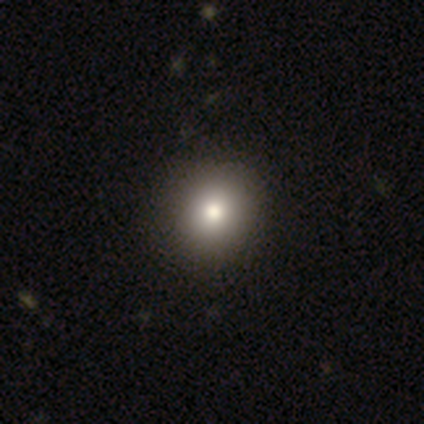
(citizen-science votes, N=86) A smooth galaxy with no disk features (81%) that is round (86%). Merging: none (91%).